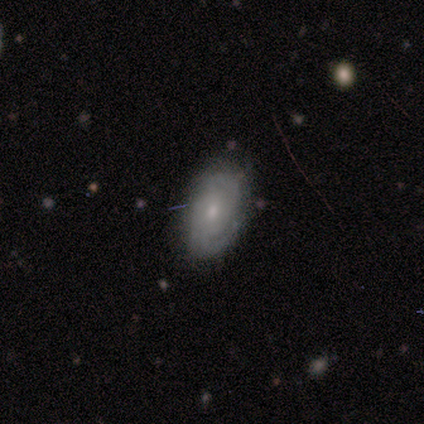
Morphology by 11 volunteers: This is likely a featured or disk galaxy (64%). It is clearly not viewed edge-on (100%). Bar: likely no (71%). Spiral arm pattern: clearly yes (100%). Spiral arm count: marginally 2 (43%). Spiral winding: possibly tight (57%). Central bulge: likely small (71%). Merging: clearly none (91%).